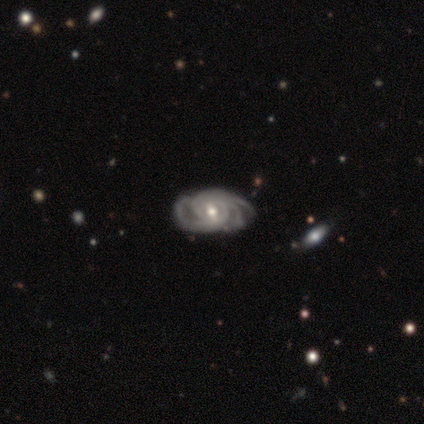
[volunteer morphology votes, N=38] smooth_or_featured: featured or disk (p=0.89) [alt: star or artifact p=0.08]
disk_edge_on: no (p=1.00)
bar: no (p=0.44) [alt: weak p=0.41]
has_spiral_arms: yes (p=1.00)
spiral_winding: tight (p=0.71) [alt: medium p=0.26]
spiral_arm_count: 3 (p=0.56) [alt: 4 p=0.24]
bulge_size: moderate (p=0.65) [alt: small p=0.32]
merging: none (p=0.83) [alt: minor disturbance p=0.09]